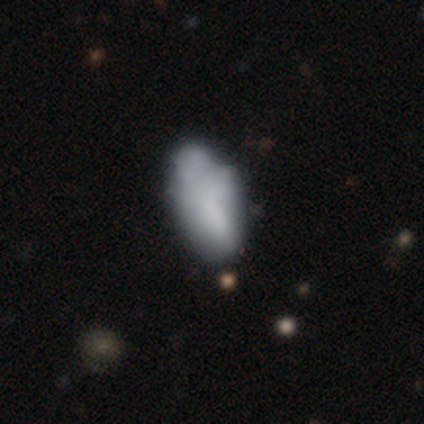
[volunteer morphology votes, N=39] Smooth or featured?
  - smooth: 59% *
  - featured or disk: 28%
  - star or artifact: 13%
How rounded?
  - in between: 100% *
  - round: 0%
  - cigar-shaped: 0%
Merging?
  - none: 50% *
  - minor disturbance: 38%
  - major disturbance: 9%
  - merger: 3%